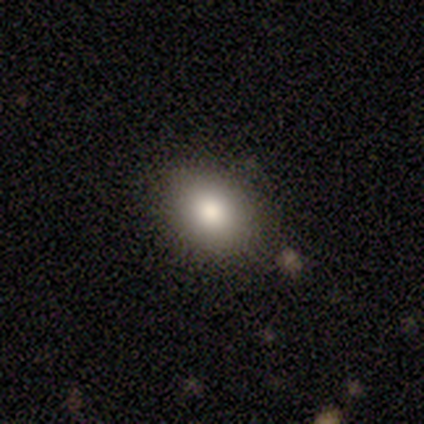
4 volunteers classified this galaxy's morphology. Smooth or featured? smooth (100%)
How rounded? round (50%, tied with in between)
Merging? none (100%)